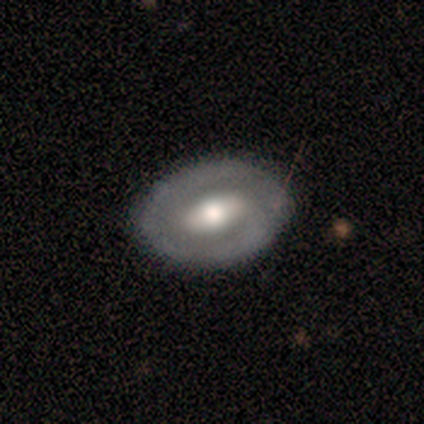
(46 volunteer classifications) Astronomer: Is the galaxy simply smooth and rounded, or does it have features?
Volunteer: featured or disk — 67%.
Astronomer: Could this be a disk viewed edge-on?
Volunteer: no — 97%.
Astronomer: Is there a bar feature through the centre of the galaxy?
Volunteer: weak — 43% (runner-up: no, 30%).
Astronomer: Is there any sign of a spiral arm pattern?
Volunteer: no — 53% (runner-up: yes, 47%).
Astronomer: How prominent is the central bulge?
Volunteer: moderate — 60%.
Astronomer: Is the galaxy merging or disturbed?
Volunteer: none — 82%.